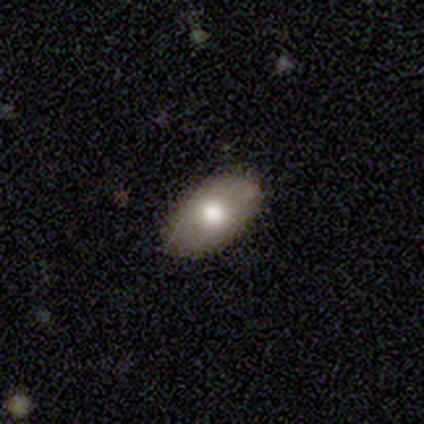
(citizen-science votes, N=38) Q: Smooth or featured?
A: smooth (76%); runner-up: featured or disk (21%)
Q: How rounded?
A: in between (97%); runner-up: round (3%)
Q: Merging?
A: none (73%); runner-up: minor disturbance (24%)